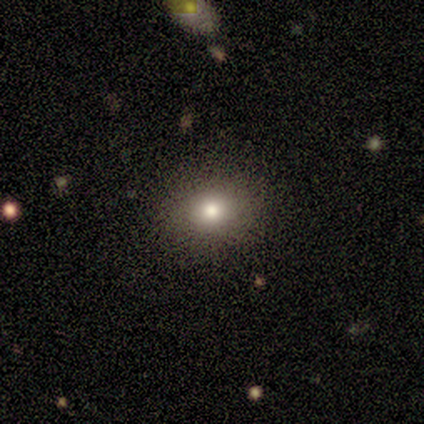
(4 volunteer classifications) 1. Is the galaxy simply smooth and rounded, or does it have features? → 50% smooth, 25% featured or disk, 25% star or artifact.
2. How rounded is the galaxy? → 50% round (tied), 50% in between (tied), 0% cigar-shaped.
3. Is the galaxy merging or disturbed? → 67% none, 33% minor disturbance, 0% major disturbance, 0% merger.